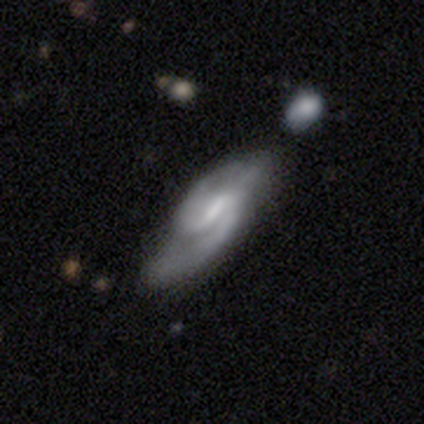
featured or disk 80%, smooth 20%, star or artifact 0%. Down the decision tree: edge-on disk — no (75%); bar — weak (67%); spiral arms — yes (100%); spiral arm count — 2 (67%); spiral winding — medium (67%); bulge size — none (67%); merging — none (100%).